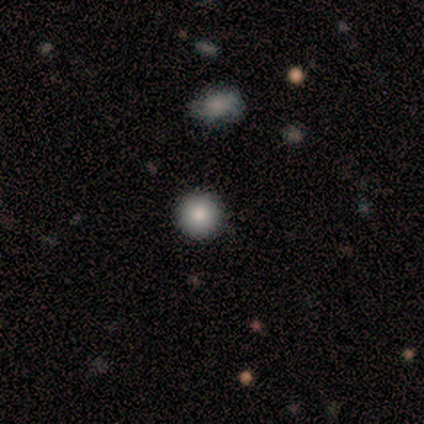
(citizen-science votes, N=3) Overall: smooth (100%). How rounded: round (100%). Merging: none (100%).